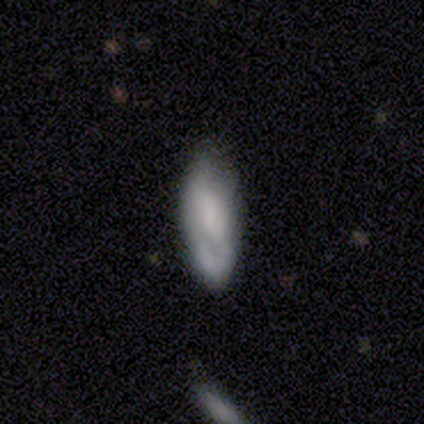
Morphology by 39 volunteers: type=smooth (56%); roundness=in between (82%); merging=none (49%).